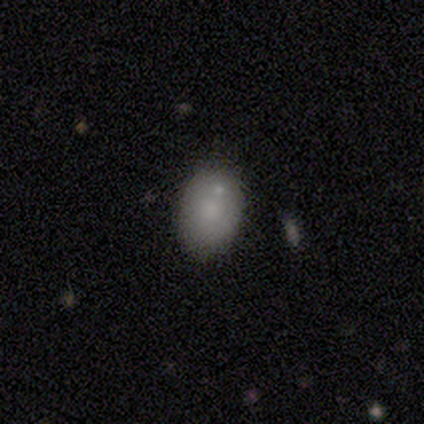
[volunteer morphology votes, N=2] Volunteers were most divided on "how rounded" (2-way tie): round: 50%, in between: 50%, cigar-shaped: 0%; "merging" (2-way tie): none: 50%, merger: 50%, minor disturbance: 0%, major disturbance: 0%. More confident: smooth or featured — smooth (100%).